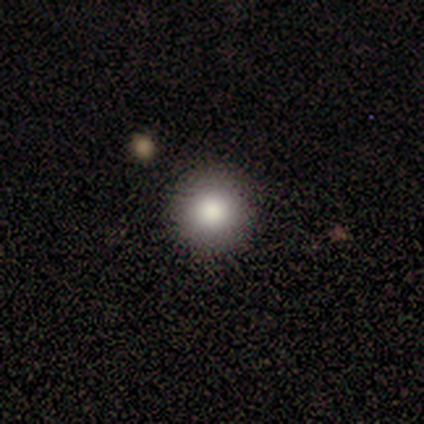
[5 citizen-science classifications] Q: Smooth or featured?
A: smooth (80%); runner-up: featured or disk (20%)
Q: How rounded?
A: round (100%)
Q: Merging?
A: none (100%)